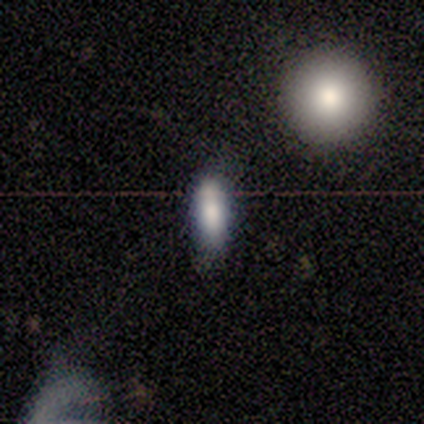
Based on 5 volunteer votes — Smooth or featured: smooth — 100%
How rounded: cigar-shaped — 80% (in between — 20%)
Merging: none — 100%